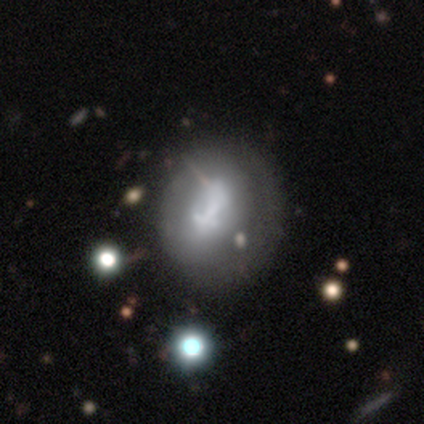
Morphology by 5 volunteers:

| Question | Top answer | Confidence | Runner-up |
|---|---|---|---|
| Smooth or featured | smooth | 80% | featured or disk (20%) |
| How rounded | round | 75% | in between (25%) |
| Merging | none | 60% | major disturbance (40%) |